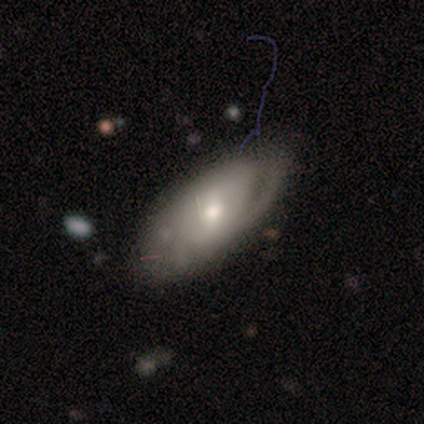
Smooth or featured?
  - smooth: 43% * (tied)
  - featured or disk: 43% * (tied)
  - star or artifact: 14%
How rounded?
  - in between: 100% *
  - round: 0%
  - cigar-shaped: 0%
Merging?
  - none: 50% *
  - minor disturbance: 33%
  - major disturbance: 17%
  - merger: 0%